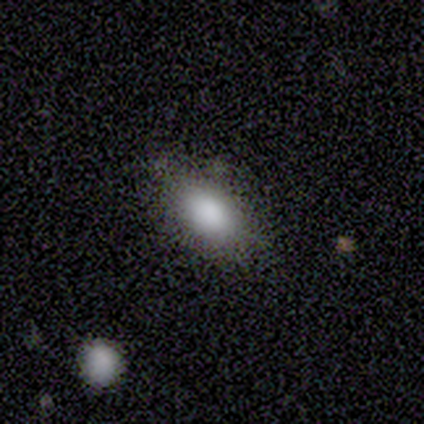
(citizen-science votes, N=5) Smooth or featured? 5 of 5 (100%) said smooth. How rounded? 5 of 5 (100%) said in between. Merging? 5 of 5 (100%) said none.